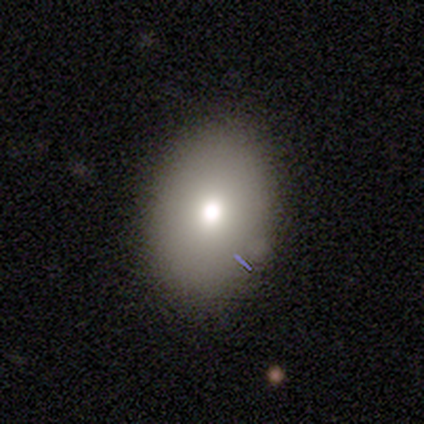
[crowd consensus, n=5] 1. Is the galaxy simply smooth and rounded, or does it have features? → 80% smooth, 20% featured or disk, 0% star or artifact.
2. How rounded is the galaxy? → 100% in between, 0% round, 0% cigar-shaped.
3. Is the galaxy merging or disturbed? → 100% none, 0% minor disturbance, 0% major disturbance, 0% merger.